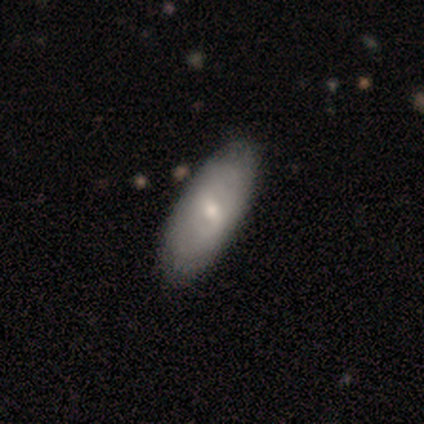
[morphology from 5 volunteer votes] Volunteers were most divided on "smooth or featured": featured or disk: 60%, smooth: 40%, star or artifact: 0%. More confident: edge-on disk — no (100%); bar — weak (100%); merging — none (100%); spiral arms — no (67%); bulge size — small (67%).